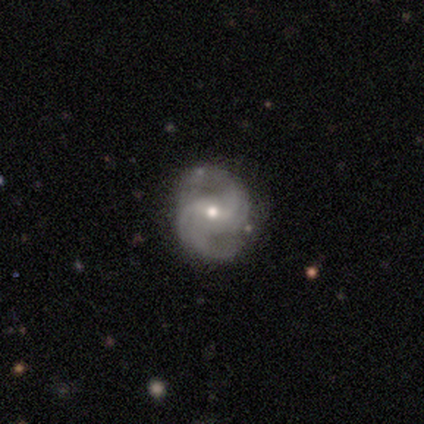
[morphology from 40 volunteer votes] A featured or disk galaxy (85%) with a weak bar (47%), 2 (74%) medium (59%) spiral arms (100%) and a small central bulge (50%).

Vote fractions:
- Smooth or featured? featured or disk: 85% / smooth: 10% / star or artifact: 5%
- Edge-on disk? no: 100% / yes: 0%
- Bar? weak: 47% / no: 32% / strong: 21%
- Spiral arms? yes: 100% / no: 0%
- Spiral winding? medium: 59% / tight: 21% / loose: 21%
- Spiral arm count? 2: 74% / 3: 15% / 4: 6% / can't tell: 6% / 1: 0% / more than 4: 0%
- Bulge size? small: 50% / moderate: 47% / large: 3% / dominant: 0% / none: 0%
- Merging? none: 76% / minor disturbance: 13% / major disturbance: 8% / merger: 3%